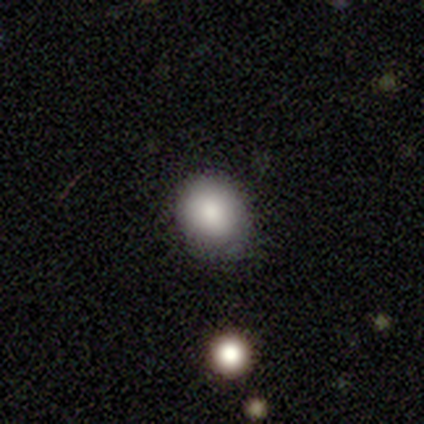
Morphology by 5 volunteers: This is clearly a smooth galaxy (80%). How rounded: likely round (75%). Merging: possibly none (50%).